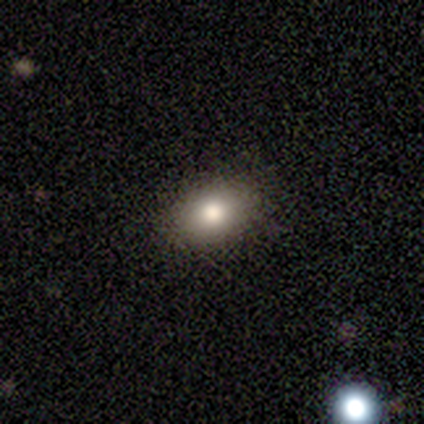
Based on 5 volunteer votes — smooth_or_featured: smooth (p=0.80) [alt: star or artifact p=0.20]
how_rounded: in between (p=1.00)
merging: none (p=0.75) [alt: major disturbance p=0.25]